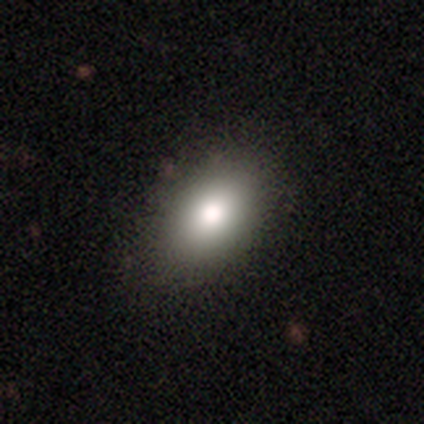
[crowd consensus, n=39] A smooth galaxy with no disk features (82%) that is in between round and cigar-shaped (91%).

Vote fractions:
- Smooth or featured? smooth: 82% / featured or disk: 13% / star or artifact: 5%
- How rounded? in between: 91% / round: 9% / cigar-shaped: 0%
- Merging? none: 78% / merger: 3% / minor disturbance: 0% / major disturbance: 0%